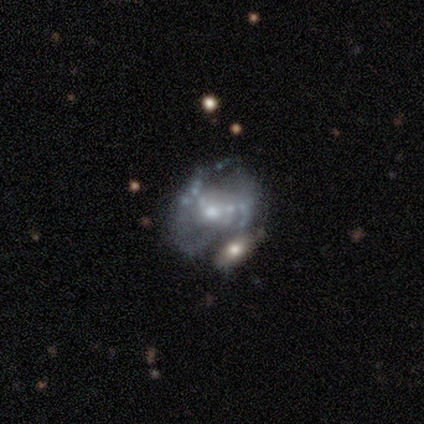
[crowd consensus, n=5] Volunteers were most divided on "spiral arm count" (2-way tie): 2: 50%, can't tell: 50%, 1: 0%, 3: 0%, 4: 0%, more than 4: 0%. More confident: smooth or featured — featured or disk (100%); edge-on disk — no (100%); bar — no (100%); spiral winding — medium (100%); bulge size — moderate (100%); spiral arms — yes (80%); merging — none (60%).